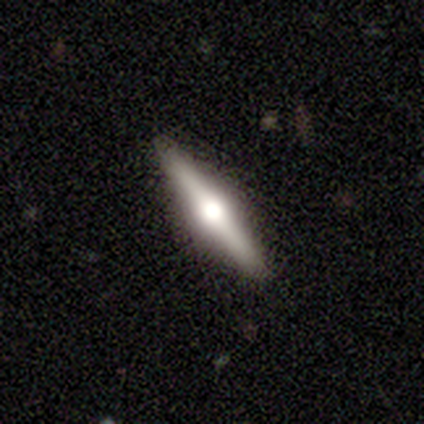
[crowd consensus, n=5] Smooth or featured? 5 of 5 (100%) said featured or disk. Edge-on disk? 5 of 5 (100%) said yes. Edge-on bulge? 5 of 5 (100%) said rounded. Merging? 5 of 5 (100%) said none.